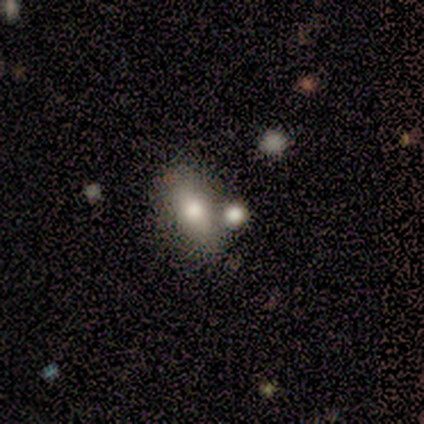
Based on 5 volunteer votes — Smooth or featured: smooth — 80% (star or artifact — 20%)
How rounded: in between — 100%
Merging: none — 75% (merger — 25%)